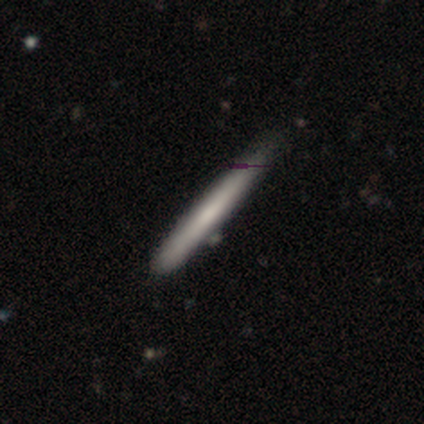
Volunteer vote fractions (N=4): Volunteers were most divided on "merging" (2-way tie): none: 50%, minor disturbance: 50%, major disturbance: 0%, merger: 0%. More confident: how rounded — cigar-shaped (100%); smooth or featured — smooth (75%).